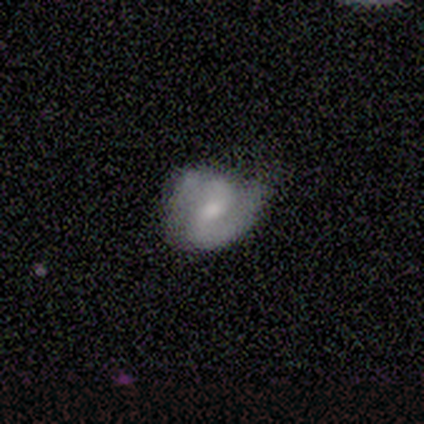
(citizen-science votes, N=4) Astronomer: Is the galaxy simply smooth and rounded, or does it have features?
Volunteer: featured or disk — 75%.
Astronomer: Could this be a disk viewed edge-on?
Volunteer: no — 100%.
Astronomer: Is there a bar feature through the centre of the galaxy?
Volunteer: weak — 100%.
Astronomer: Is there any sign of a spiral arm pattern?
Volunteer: yes — 67%.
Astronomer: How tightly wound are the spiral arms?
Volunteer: medium — 50%, tied with loose at 50%.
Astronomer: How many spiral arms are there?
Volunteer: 2 — 100%.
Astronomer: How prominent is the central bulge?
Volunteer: moderate — 33%, tied with small and none at 33%.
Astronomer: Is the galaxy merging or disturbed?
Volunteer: minor disturbance — 100%.